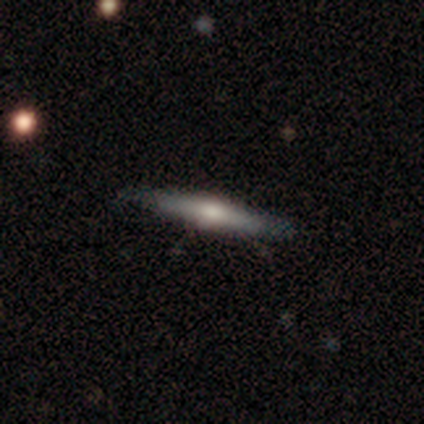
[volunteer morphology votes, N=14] This appears to be a featured or disk galaxy (86%) viewed edge-on (92%) with a rounded central bulge (91%). Merging: none (79%).